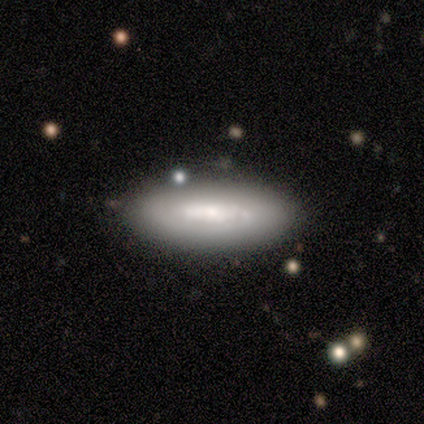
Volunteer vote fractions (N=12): Overall: smooth (50%, tied with featured or disk). How rounded: in between (67%; cigar-shaped 33%). Merging: none (83%).